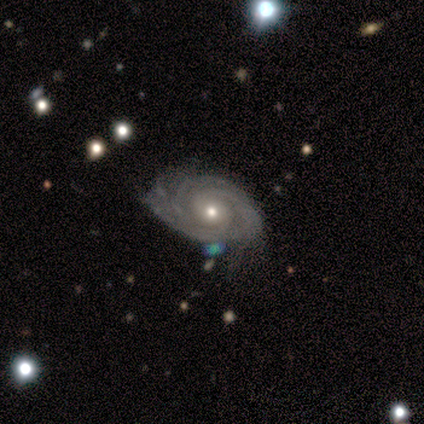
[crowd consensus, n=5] smooth-or-featured: featured or disk: 80% | smooth: 20% | star or artifact: 0%
  disk-edge-on: no: 100% | yes: 0%
    bar: no: 100% | strong: 0% | weak: 0%
    has-spiral-arms: yes: 100% | no: 0%
      spiral-winding: tight: 75% | medium: 25% | loose: 0%
      spiral-arm-count: 3: 50% | 2: 25% | 4: 25% | 1: 0% | more than 4: 0% | can't tell: 0%
    bulge-size: small: 100% | dominant: 0% | large: 0% | moderate: 0% | none: 0%
  merging: none: 80% | major disturbance: 20% | minor disturbance: 0% | merger: 0%